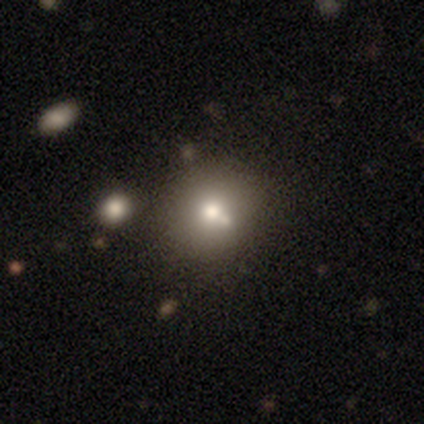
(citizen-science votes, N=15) smooth 67%, featured or disk 33%, star or artifact 0%. Down the decision tree: how rounded — round (50%, tied with in between); merging — none (60%).